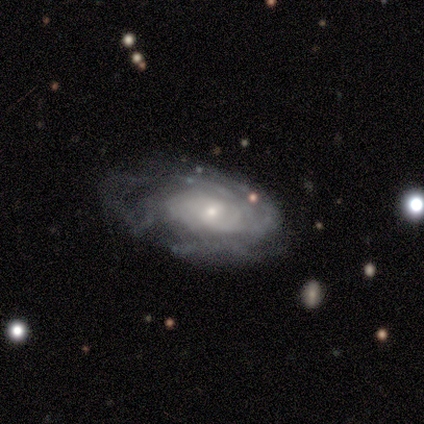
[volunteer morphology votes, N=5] A featured or disk galaxy (80%) with no bar (75%), tight (100%) spiral arms (100%) and a small central bulge (75%).

Vote fractions:
- Smooth or featured? featured or disk: 80% / star or artifact: 20% / smooth: 0%
- Edge-on disk? no: 100% / yes: 0%
- Bar? no: 75% / weak: 25% / strong: 0%
- Spiral arms? yes: 100% / no: 0%
- Spiral winding? tight: 100% / medium: 0% / loose: 0%
- Spiral arm count? can't tell: 50% / 3: 25% / 4: 25% / 1: 0% / 2: 0% / more than 4: 0%
- Bulge size? small: 75% / moderate: 25% / dominant: 0% / large: 0% / none: 0%
- Merging? none: 100% / minor disturbance: 0% / major disturbance: 0% / merger: 0%